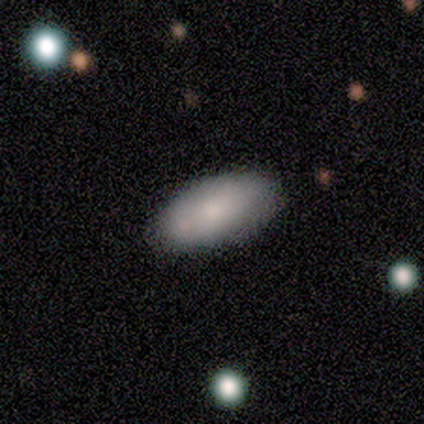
Morphology: type=smooth (100%); roundness=in between (100%); merging=none (100%).